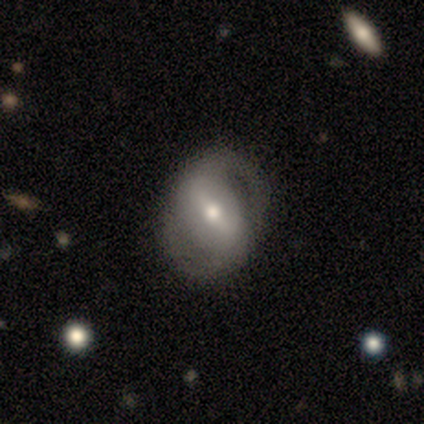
Morphology: type=featured or disk (100%); edge-on=no (100%); bar=strong (60%); spiral arms=yes (80%); winding=tight (50%, tied with loose); arm count=2 (100%); bulge=large (40%); merging=minor disturbance (60%).